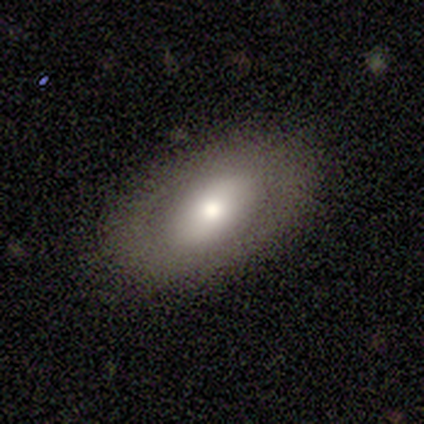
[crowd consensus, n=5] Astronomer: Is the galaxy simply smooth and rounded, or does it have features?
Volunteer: smooth — 60% (runner-up: featured or disk, 40%).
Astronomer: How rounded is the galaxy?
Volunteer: in between — 100%.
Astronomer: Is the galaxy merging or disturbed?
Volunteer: none — 100%.